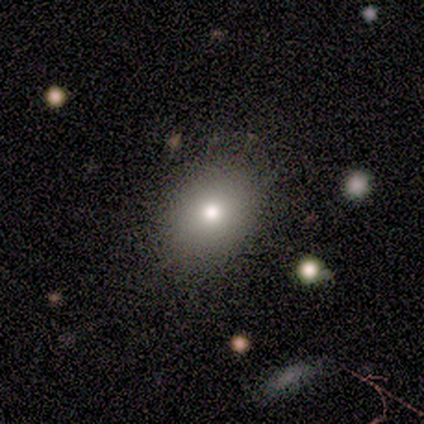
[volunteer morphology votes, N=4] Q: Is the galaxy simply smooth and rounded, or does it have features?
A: smooth — 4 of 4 (100%).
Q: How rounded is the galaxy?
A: in between — 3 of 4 (75%).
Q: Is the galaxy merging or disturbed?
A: none — 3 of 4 (75%).